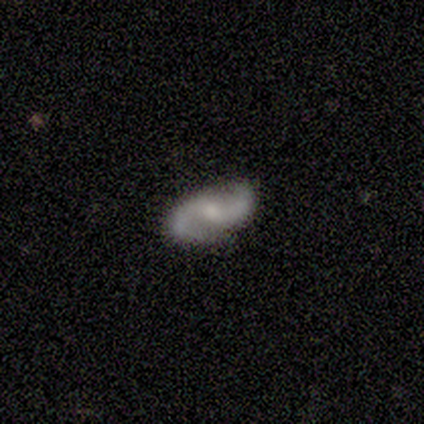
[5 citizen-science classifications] Overall: featured or disk (100%). Edge-on disk: no (100%). Bar: weak (60%; no 40%). Spiral arms: yes (100%). Spiral arm count: 2 (100%). Spiral winding: loose (100%). Bulge size: moderate (60%; small 40%). Merging: none (100%).